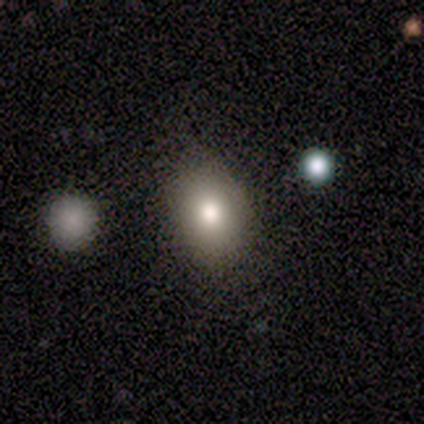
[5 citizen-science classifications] Overall: smooth (100%). How rounded: in between (60%; round 40%). Merging: none (80%).